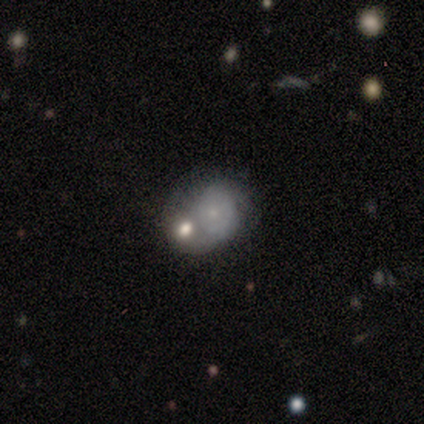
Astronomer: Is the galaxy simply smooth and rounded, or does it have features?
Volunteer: smooth — 80%.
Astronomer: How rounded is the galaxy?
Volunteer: round — 75%.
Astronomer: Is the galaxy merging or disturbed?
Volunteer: merger — 80%.